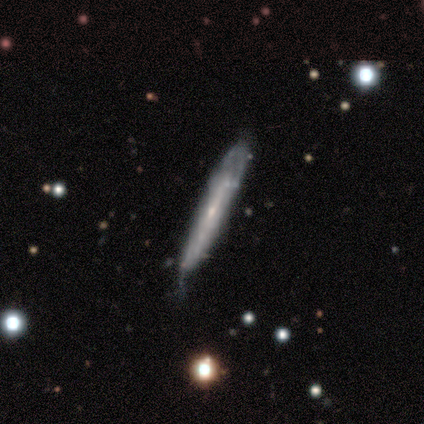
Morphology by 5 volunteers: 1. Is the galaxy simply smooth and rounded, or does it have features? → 60% smooth, 40% featured or disk, 0% star or artifact.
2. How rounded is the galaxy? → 100% cigar-shaped, 0% round, 0% in between.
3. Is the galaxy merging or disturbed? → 40% none (tied), 40% minor disturbance (tied), 20% major disturbance, 0% merger.